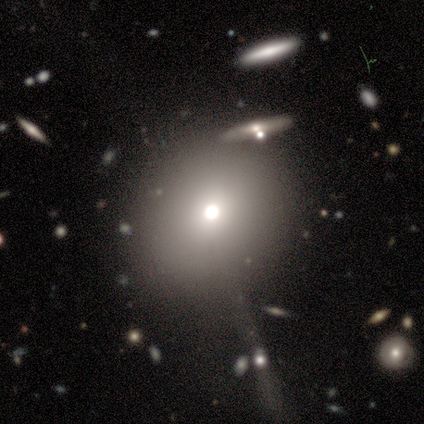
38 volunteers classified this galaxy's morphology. Smooth or featured? smooth (55%)
How rounded? round (86%)
Merging? none (59%)